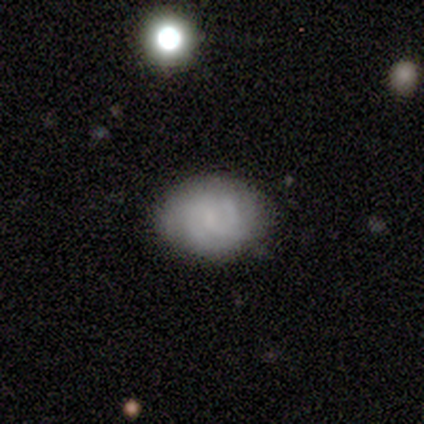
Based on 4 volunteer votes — This appears to be a smooth galaxy with no disk features (50%, tied with featured or disk) that is in between round and cigar-shaped (50%, tied with cigar-shaped). Merging: none (75%).